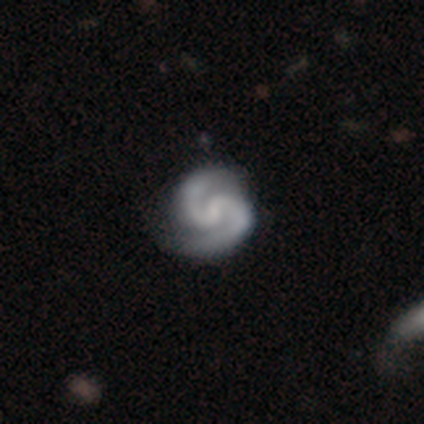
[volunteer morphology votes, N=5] featured or disk 100%, smooth 0%, star or artifact 0%. Down the decision tree: edge-on disk — no (100%); bar — strong (40%, tied with weak); spiral arms — yes (100%); spiral arm count — 2 (100%); spiral winding — tight (60%); bulge size — small (60%); merging — none (60%).